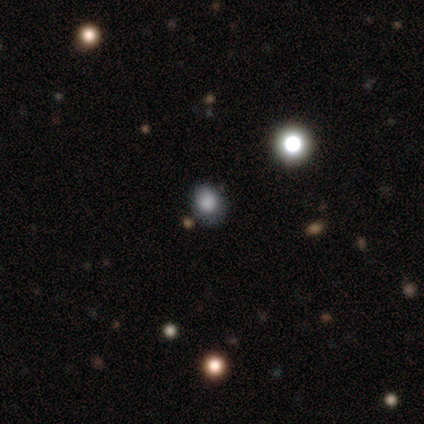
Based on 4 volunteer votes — Morphology: type=smooth (75%); roundness=round (100%); merging=none (67%).